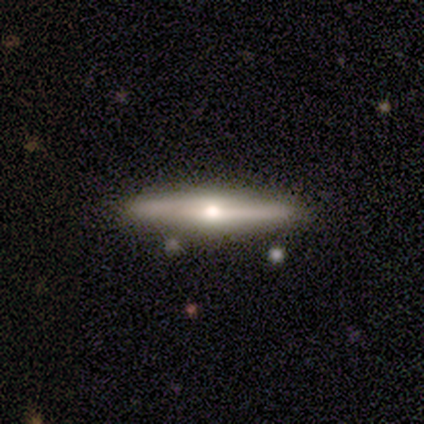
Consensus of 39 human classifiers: This is likely a featured or disk galaxy (69%). It is clearly viewed edge-on (96%). Edge-on bulge: clearly rounded (92%). Merging: clearly none (89%).